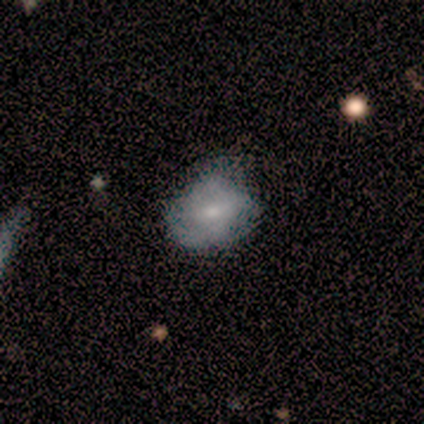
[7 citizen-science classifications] Volunteers were most divided on "spiral arms" (2-way tie): yes: 50%, no: 50%; "spiral arm count" (2-way tie): 3: 50%, can't tell: 50%, 1: 0%, 2: 0%, 4: 0%, more than 4: 0%. More confident: edge-on disk — no (100%); spiral winding — medium (100%); bulge size — small (100%); bar — weak (75%); merging — none (67%); smooth or featured — featured or disk (57%).